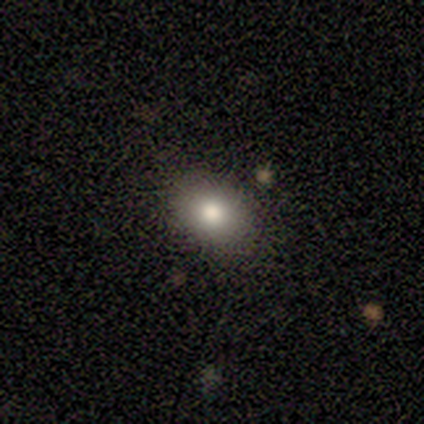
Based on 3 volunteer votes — Overall: smooth (100%). How rounded: in between (100%). Merging: none (100%).